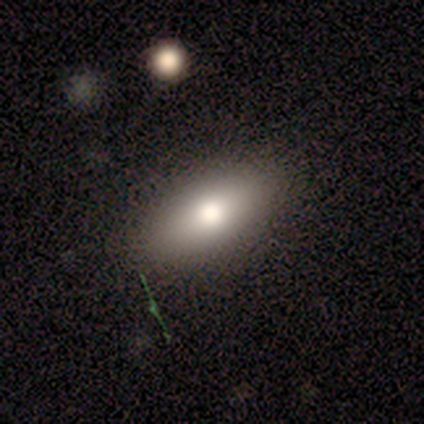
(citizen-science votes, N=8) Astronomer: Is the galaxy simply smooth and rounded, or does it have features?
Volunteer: smooth — 100%.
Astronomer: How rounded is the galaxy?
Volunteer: in between — 88%.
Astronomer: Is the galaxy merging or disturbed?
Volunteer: none — 88%.